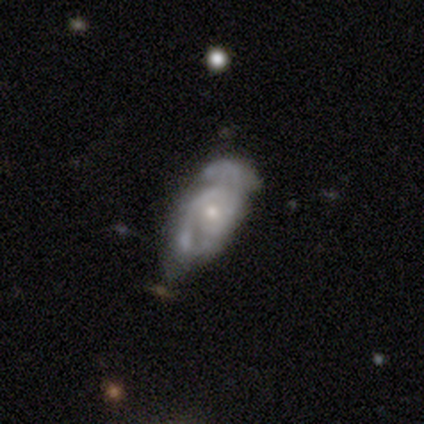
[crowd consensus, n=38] smooth_or_featured: featured or disk (p=0.87) [alt: smooth p=0.11]
disk_edge_on: no (p=1.00)
bar: no (p=0.76) [alt: weak p=0.18]
has_spiral_arms: yes (p=0.94) [alt: no p=0.06]
spiral_winding: medium (p=0.52) [alt: tight p=0.42]
spiral_arm_count: 2 (p=0.77) [alt: can't tell p=0.16]
bulge_size: small (p=0.64) [alt: moderate p=0.33]
merging: none (p=0.32) [tied with: minor disturbance p=0.32]